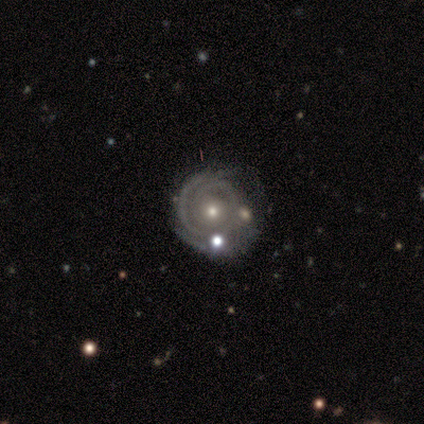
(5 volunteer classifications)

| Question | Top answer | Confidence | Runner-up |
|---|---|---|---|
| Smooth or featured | featured or disk | 100% | — |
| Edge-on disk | no | 100% | — |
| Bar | weak | 60% | no (40%) |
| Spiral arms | yes | 100% | — |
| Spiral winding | tight | 80% | medium (20%) |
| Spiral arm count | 2 | 40% | 1 (20%) |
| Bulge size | small | 80% | moderate (20%) |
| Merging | none | 40% | tied: minor disturbance (40%) |